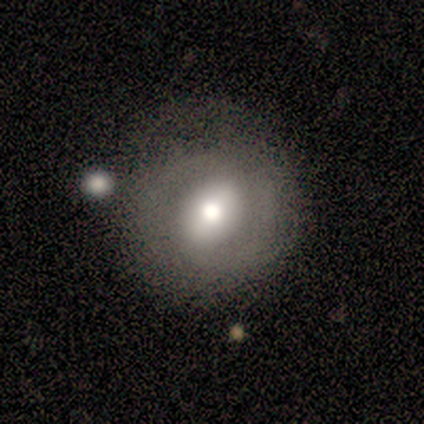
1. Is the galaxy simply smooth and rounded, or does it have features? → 50% smooth (tied), 50% featured or disk (tied), 0% star or artifact.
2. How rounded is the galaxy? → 100% round, 0% in between, 0% cigar-shaped.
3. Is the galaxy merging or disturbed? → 75% none, 25% merger, 0% minor disturbance, 0% major disturbance.